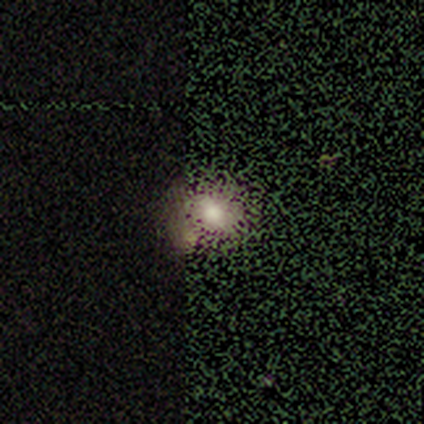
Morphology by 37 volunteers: This appears to be a smooth galaxy with no disk features (59%) that is round (68%). Merging: none (43%).